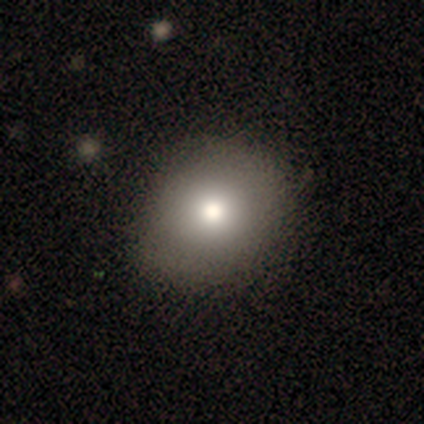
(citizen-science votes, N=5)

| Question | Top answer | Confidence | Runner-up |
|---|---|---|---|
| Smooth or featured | smooth | 80% | star or artifact (20%) |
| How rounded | round | 75% | in between (25%) |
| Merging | none | 100% | — |